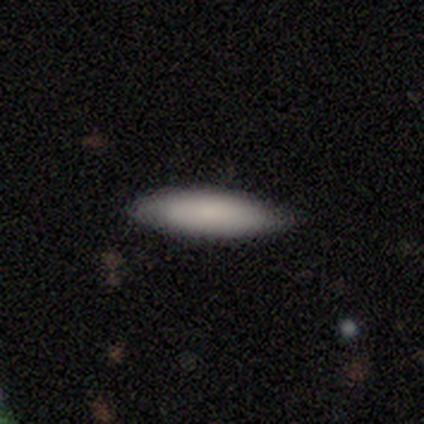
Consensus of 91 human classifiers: Smooth or featured: smooth — 86% (featured or disk — 8%)
How rounded: cigar-shaped — 55% (in between — 45%)
Merging: none — 81% (minor disturbance — 16%)